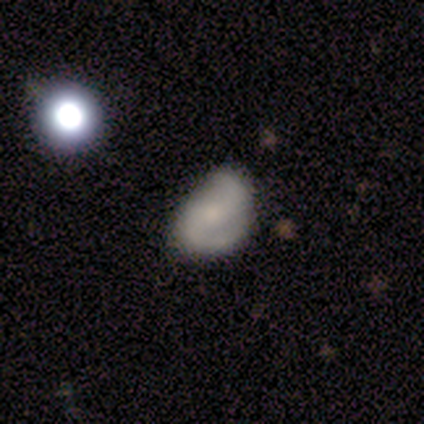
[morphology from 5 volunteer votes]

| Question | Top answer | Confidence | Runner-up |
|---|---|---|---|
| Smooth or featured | featured or disk | 40% | tied: star or artifact (40%) |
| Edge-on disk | no | 100% | — |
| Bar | no | 100% | — |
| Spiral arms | yes | 50% | tied: no (50%) |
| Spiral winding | loose | 100% | — |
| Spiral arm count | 2 | 100% | — |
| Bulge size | moderate | 50% | tied: small (50%) |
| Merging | none | 67% | minor disturbance (33%) |